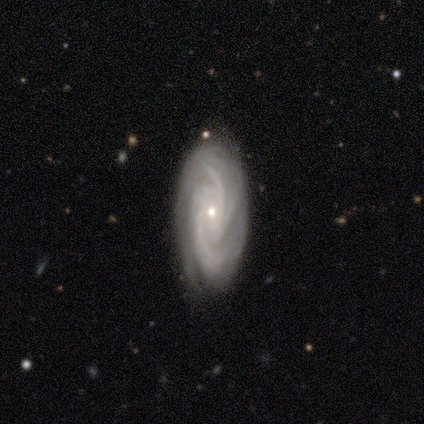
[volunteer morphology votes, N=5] This appears to be a featured or disk galaxy (100%) with no bar (60%), 4 (40%) tight (80%) spiral arms (100%) and a small central bulge (80%). Merging: none (100%).